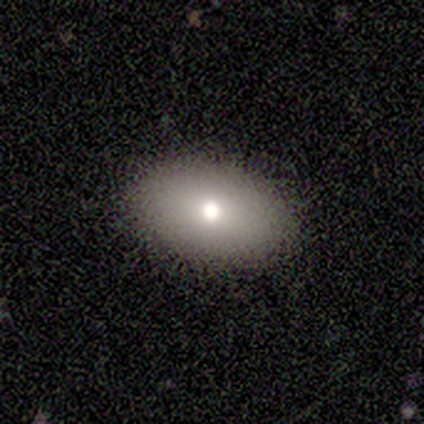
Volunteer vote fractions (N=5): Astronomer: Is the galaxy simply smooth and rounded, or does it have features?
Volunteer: smooth — 100%.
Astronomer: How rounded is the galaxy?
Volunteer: in between — 100%.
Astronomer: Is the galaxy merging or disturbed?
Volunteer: none — 100%.